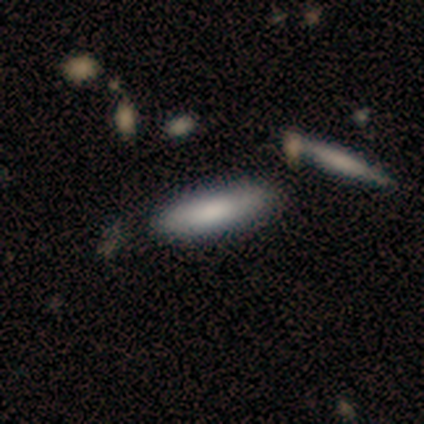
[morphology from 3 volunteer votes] type=smooth (100%); roundness=cigar-shaped (67%); merging=none (100%).